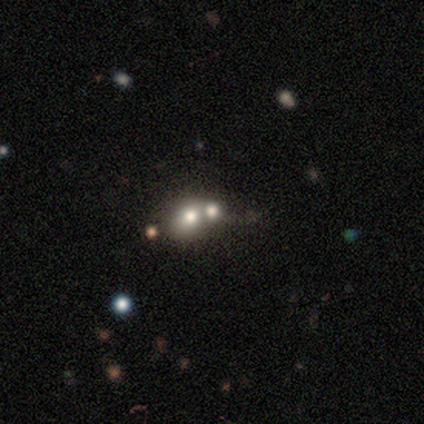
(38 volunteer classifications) Morphology: type=smooth (55%); roundness=round (76%); merging=merger (48%).